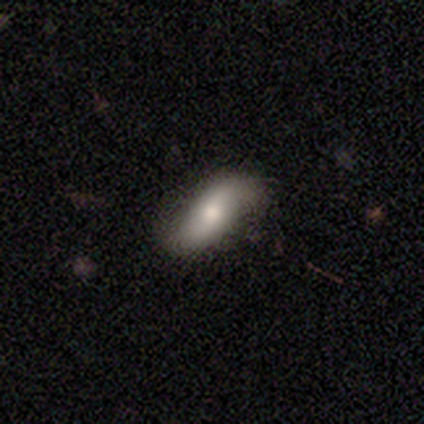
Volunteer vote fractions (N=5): Morphology: type=smooth (60%); roundness=in between (67%); merging=none (80%).